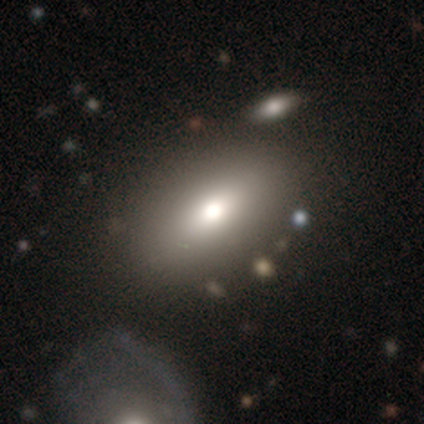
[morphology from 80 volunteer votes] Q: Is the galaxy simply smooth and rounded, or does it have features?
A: smooth — 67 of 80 (84%).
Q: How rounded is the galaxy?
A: in between — 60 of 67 (90%).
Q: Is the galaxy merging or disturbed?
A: none — 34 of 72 (47%).